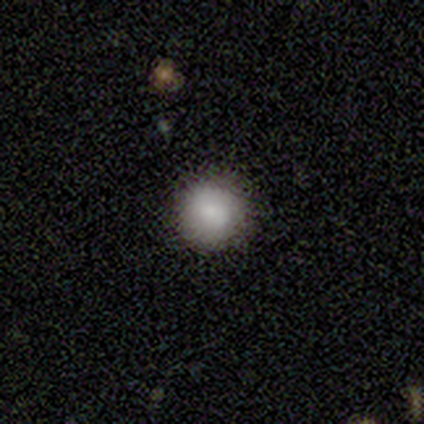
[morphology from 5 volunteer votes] Smooth or featured? smooth (80%)
How rounded? round (100%)
Merging? none (100%)